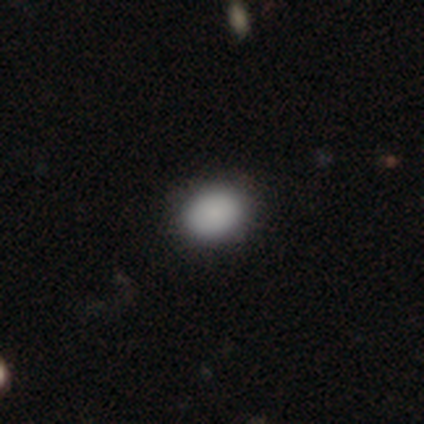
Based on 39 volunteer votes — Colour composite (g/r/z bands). It shows a smooth galaxy with no disk features (90%) that is in between round and cigar-shaped (54%). Merging: none (89%).